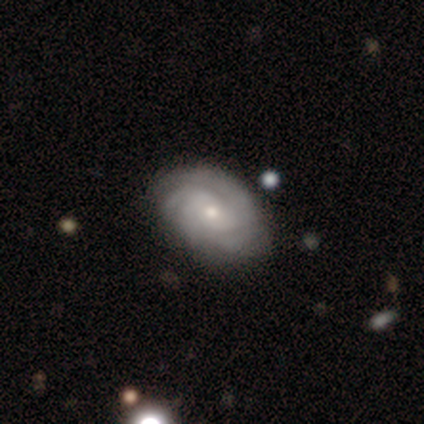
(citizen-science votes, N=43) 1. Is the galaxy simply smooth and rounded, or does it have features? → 81% featured or disk, 14% smooth, 5% star or artifact.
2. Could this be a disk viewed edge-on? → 97% no, 3% yes.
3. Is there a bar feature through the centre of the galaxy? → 79% no, 21% weak, 0% strong.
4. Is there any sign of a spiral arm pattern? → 94% yes, 6% no.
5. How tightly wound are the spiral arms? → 72% tight, 28% medium, 0% loose.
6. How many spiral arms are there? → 31% 3, 25% can't tell, 22% 4, 19% 2, 3% 1, 0% more than 4.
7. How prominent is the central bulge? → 65% small, 35% moderate, 0% dominant, 0% large, 0% none.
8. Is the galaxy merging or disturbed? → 68% none, 24% minor disturbance, 5% merger, 2% major disturbance.